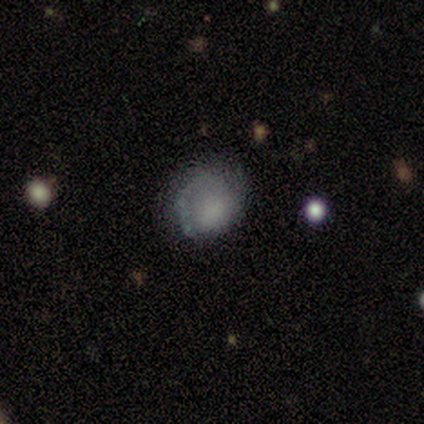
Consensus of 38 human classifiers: Morphology: type=smooth (55%); roundness=round (62%); merging=none (47%).